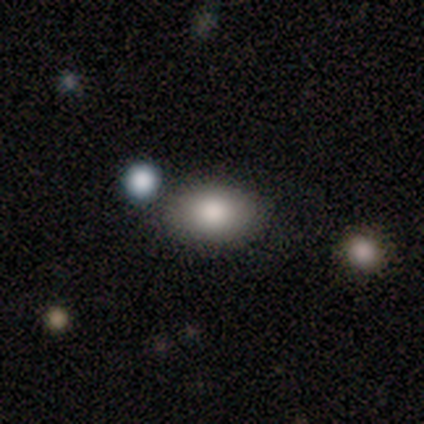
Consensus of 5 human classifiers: Smooth or featured?
  - smooth: 80% *
  - star or artifact: 20%
  - featured or disk: 0%
How rounded?
  - in between: 100% *
  - round: 0%
  - cigar-shaped: 0%
Merging?
  - none: 75% *
  - major disturbance: 25%
  - minor disturbance: 0%
  - merger: 0%